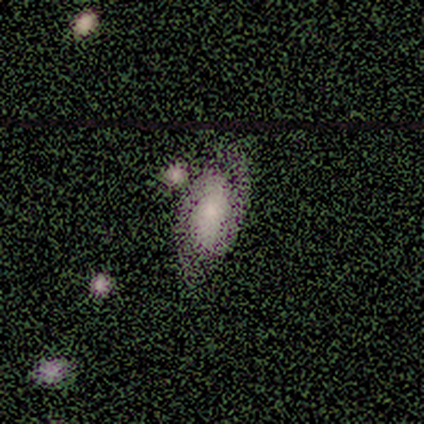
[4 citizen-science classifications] This is likely a featured or disk galaxy (75%). It is clearly not viewed edge-on (100%). Bar: likely weak (67%). Spiral arm pattern: likely yes (67%). Spiral arm count: possibly 1 (50%, tied with 2). Spiral winding: possibly tight (50%, tied with loose). Central bulge: marginally large (33%, tied with small and none). Merging: likely none (67%).